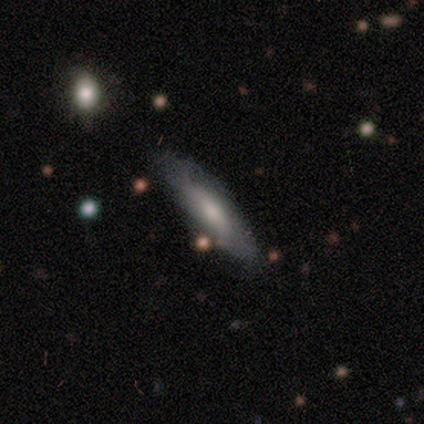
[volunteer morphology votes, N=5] This appears to be a featured or disk galaxy (60%) viewed edge-on (67%) with no central bulge (100%). Merging: none (60%).